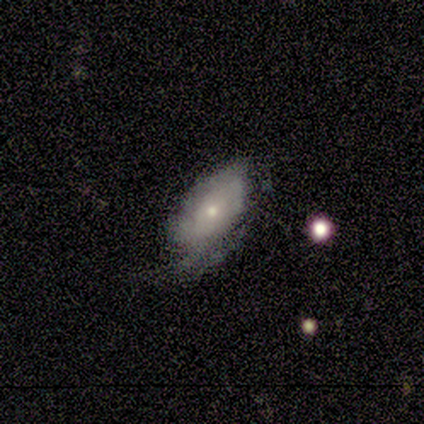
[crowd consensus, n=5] Smooth or featured: smooth — 80% (featured or disk — 20%)
How rounded: in between — 100%
Merging: minor disturbance — 60% (major disturbance — 40%)